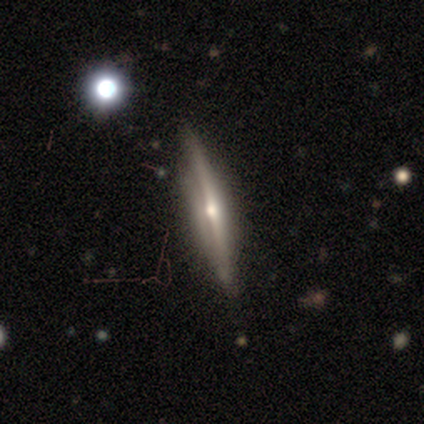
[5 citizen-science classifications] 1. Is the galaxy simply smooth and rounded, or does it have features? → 60% featured or disk, 40% star or artifact, 0% smooth.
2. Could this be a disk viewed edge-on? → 67% yes, 33% no.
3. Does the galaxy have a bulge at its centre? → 100% rounded, 0% boxy, 0% none.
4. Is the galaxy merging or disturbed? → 67% none, 33% minor disturbance, 0% major disturbance, 0% merger.